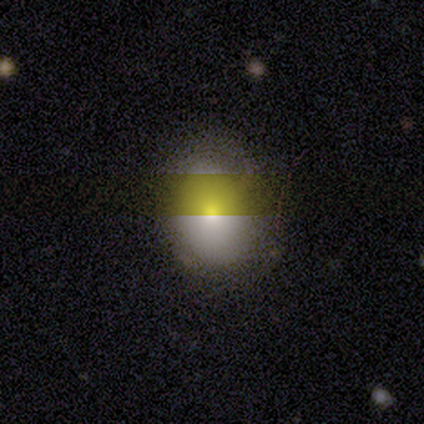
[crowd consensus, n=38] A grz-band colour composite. It shows a smooth galaxy with no disk features (58%) that is in between round and cigar-shaped (73%). Merging: none (69%).